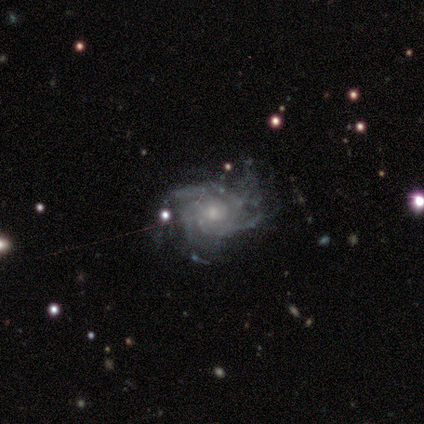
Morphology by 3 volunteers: Smooth or featured: featured or disk — 100%
Edge-on disk: no — 100%
Bar: weak — 67% (no — 33%)
Spiral arms: yes — 100%
Spiral winding: tight — 67% (medium — 33%)
Spiral arm count: 4 — 100%
Bulge size: small — 67% (moderate — 33%)
Merging: none — 100%